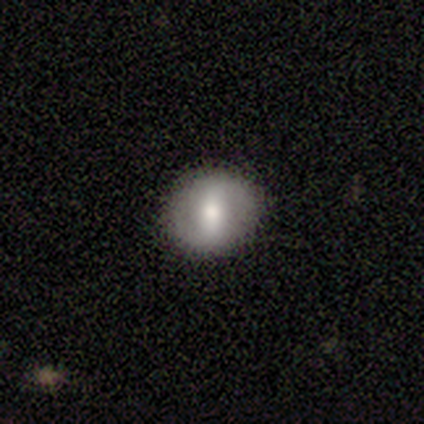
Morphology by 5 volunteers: smooth-or-featured: featured or disk: 40% (tied) | star or artifact: 40% (tied) | smooth: 20%
  disk-edge-on: no: 100% | yes: 0%
    bar: strong: 100% | weak: 0% | no: 0%
    has-spiral-arms: yes: 50% (tied) | no: 50% (tied)
      spiral-winding: tight: 100% | medium: 0% | loose: 0%
      spiral-arm-count: 2: 100% | 1: 0% | 3: 0% | 4: 0% | more than 4: 0% | can't tell: 0%
    bulge-size: moderate: 100% | dominant: 0% | large: 0% | small: 0% | none: 0%
  merging: none: 100% | minor disturbance: 0% | major disturbance: 0% | merger: 0%